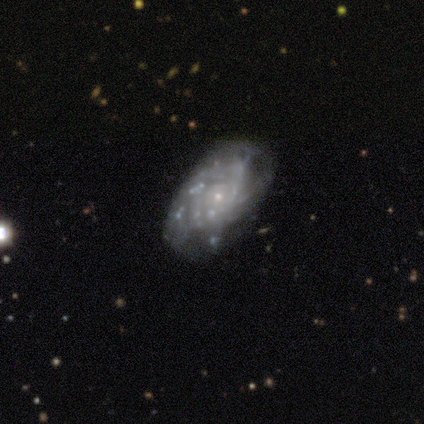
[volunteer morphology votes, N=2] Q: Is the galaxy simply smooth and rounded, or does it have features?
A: featured or disk — 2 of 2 (100%).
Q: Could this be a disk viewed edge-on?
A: no — 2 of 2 (100%).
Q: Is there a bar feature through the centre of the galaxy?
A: weak — 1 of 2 (50%, tied with no).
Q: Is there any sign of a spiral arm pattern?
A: no — 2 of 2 (100%).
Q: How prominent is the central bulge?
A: small — 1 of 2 (50%, tied with none).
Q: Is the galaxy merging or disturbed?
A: none — 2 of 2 (100%).